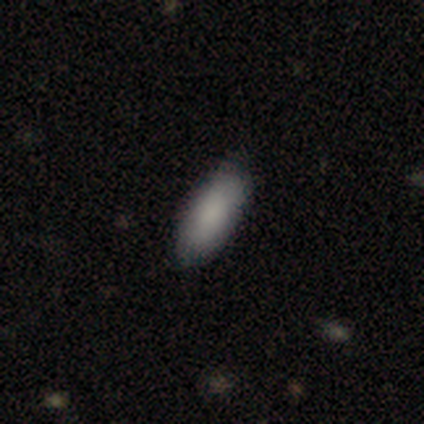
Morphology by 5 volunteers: This appears to be a smooth galaxy with no disk features (80%) that is in between round and cigar-shaped (100%). Merging: none (60%).